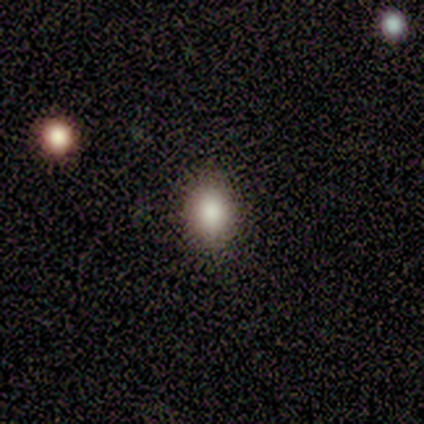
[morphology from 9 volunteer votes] smooth_or_featured: smooth (p=0.56) [alt: star or artifact p=0.33]
how_rounded: in between (p=0.60) [alt: round p=0.40]
merging: none (p=1.00)